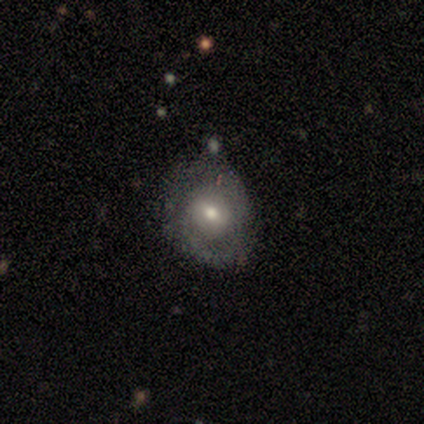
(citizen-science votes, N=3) This is clearly a featured or disk galaxy (100%). It is likely not viewed edge-on (67%). Bar: clearly weak (100%). Spiral arm pattern: possibly yes (50%, tied with no). Spiral arm count: clearly 2 (100%). Spiral winding: clearly medium (100%). Central bulge: possibly large (50%, tied with small). Merging: likely minor disturbance (67%).